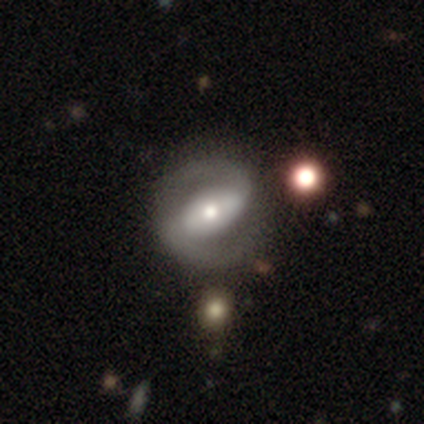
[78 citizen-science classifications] Volunteers were most divided on "bar": strong: 49%, weak: 28%, no: 23%. More confident: edge-on disk — no (100%); spiral arm count — 2 (94%); spiral arms — yes (93%); smooth or featured — featured or disk (91%); spiral winding — medium (55%); bulge size — moderate (54%); merging — none (50%).